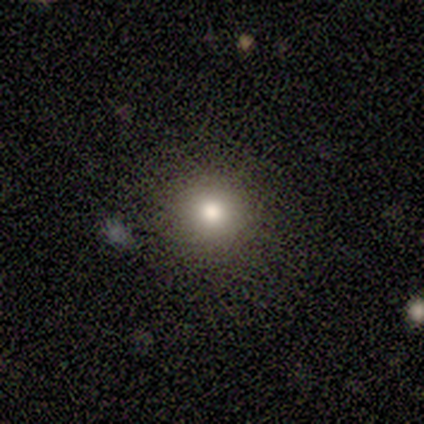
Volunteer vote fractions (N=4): smooth-or-featured: smooth: 75% | star or artifact: 25% | featured or disk: 0%
  how-rounded: round: 100% | in between: 0% | cigar-shaped: 0%
  merging: none: 100% | minor disturbance: 0% | major disturbance: 0% | merger: 0%